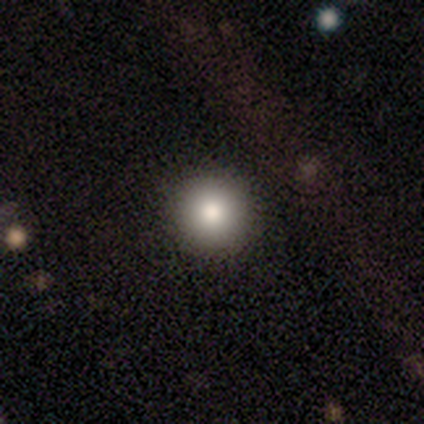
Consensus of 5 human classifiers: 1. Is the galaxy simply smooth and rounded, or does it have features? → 60% smooth, 40% star or artifact, 0% featured or disk.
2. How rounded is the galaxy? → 67% round, 33% cigar-shaped, 0% in between.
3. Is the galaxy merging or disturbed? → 100% none, 0% minor disturbance, 0% major disturbance, 0% merger.